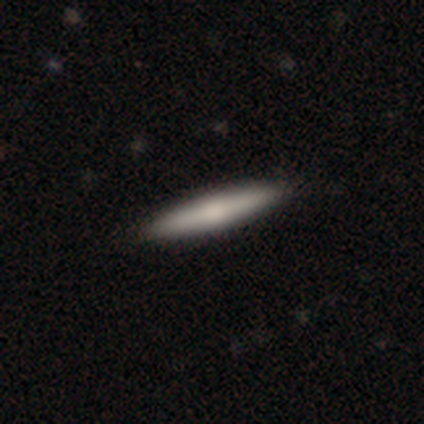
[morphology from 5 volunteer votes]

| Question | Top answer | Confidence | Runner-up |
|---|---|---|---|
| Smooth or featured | smooth | 60% | featured or disk (40%) |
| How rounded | cigar-shaped | 100% | — |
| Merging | none | 80% | major disturbance (20%) |